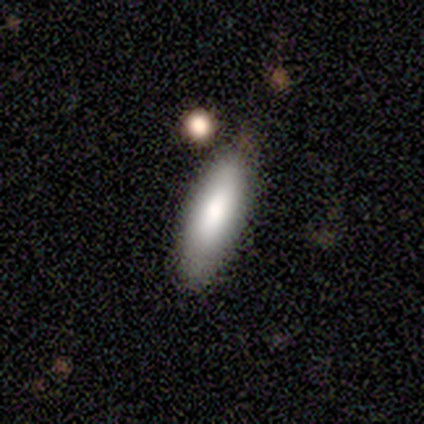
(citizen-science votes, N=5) smooth_or_featured: smooth (p=0.60) [alt: featured or disk p=0.40]
how_rounded: in between (p=1.00)
merging: none (p=1.00)